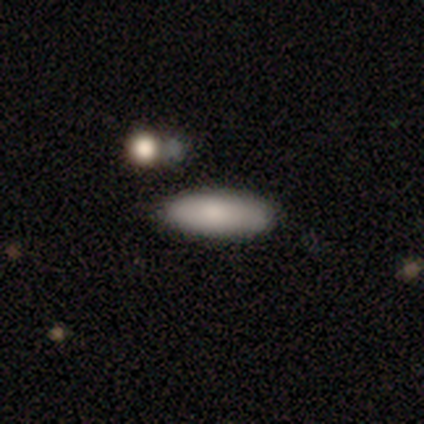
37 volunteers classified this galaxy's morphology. smooth-or-featured: smooth: 76% | featured or disk: 16% | star or artifact: 8%
  how-rounded: in between: 54% | cigar-shaped: 43% | round: 4%
  merging: none: 74% | minor disturbance: 18% | merger: 6% | major disturbance: 3%